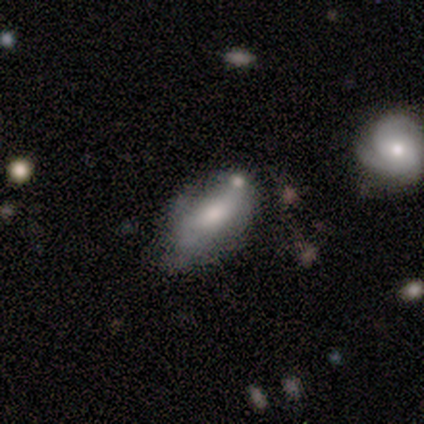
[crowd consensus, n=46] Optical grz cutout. It shows a smooth galaxy with no disk features (52%) that is in between round and cigar-shaped (88%). Merging: none (59%).